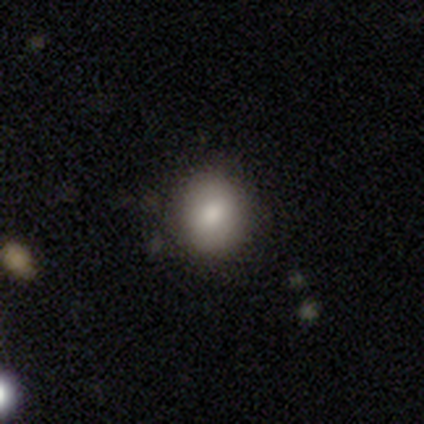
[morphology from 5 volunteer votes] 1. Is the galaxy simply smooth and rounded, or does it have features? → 40% smooth (tied), 40% star or artifact (tied), 20% featured or disk.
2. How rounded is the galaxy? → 50% round (tied), 50% in between (tied), 0% cigar-shaped.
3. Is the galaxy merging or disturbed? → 100% none, 0% minor disturbance, 0% major disturbance, 0% merger.